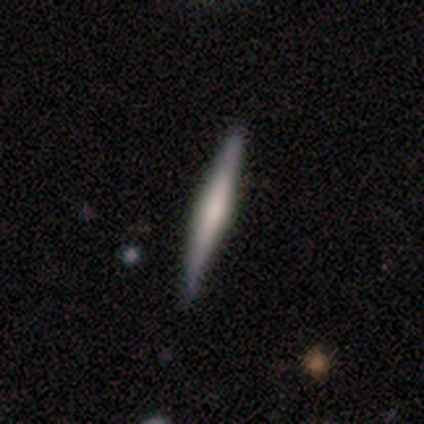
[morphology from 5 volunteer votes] Volunteers were most divided on "edge-on bulge": rounded: 60%, none: 40%, boxy: 0%. More confident: smooth or featured — featured or disk (100%); edge-on disk — yes (100%); merging — none (100%).